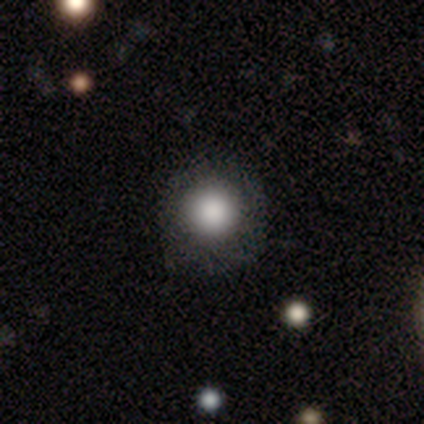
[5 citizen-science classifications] This appears to be a smooth galaxy with no disk features (100%) that is round (100%). Merging: none (80%).